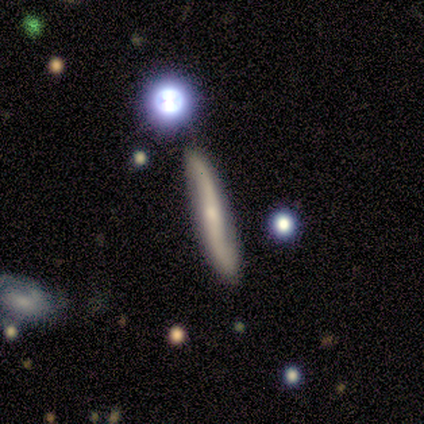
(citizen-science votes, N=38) Morphology: type=featured or disk (71%); edge-on=no (52%); bar=no (43%); spiral arms=yes (100%); winding=loose (86%); arm count=2 (100%); bulge=small (57%); merging=none (86%).